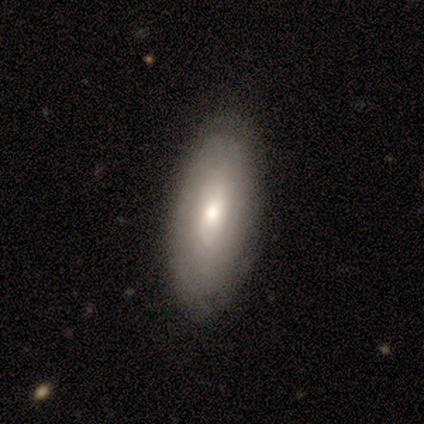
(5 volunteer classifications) Volunteers were most divided on "bar": no: 67%, weak: 33%, strong: 0%. More confident: edge-on disk — no (100%); merging — none (100%); spiral arms — no (67%); bulge size — moderate (67%); smooth or featured — featured or disk (60%).